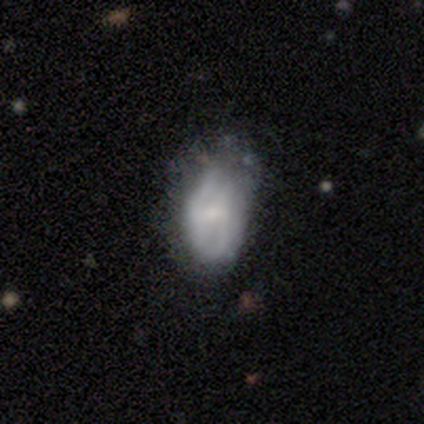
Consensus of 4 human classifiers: Smooth or featured: smooth — 50% (tied with featured or disk — 50%)
How rounded: in between — 100%
Merging: minor disturbance — 50% (none — 25%)